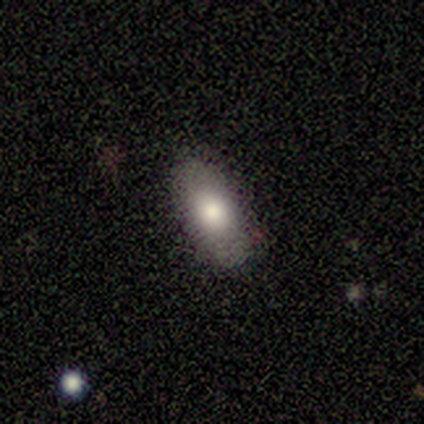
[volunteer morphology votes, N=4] Smooth or featured: smooth — 100%
How rounded: in between — 100%
Merging: none — 75% (minor disturbance — 25%)